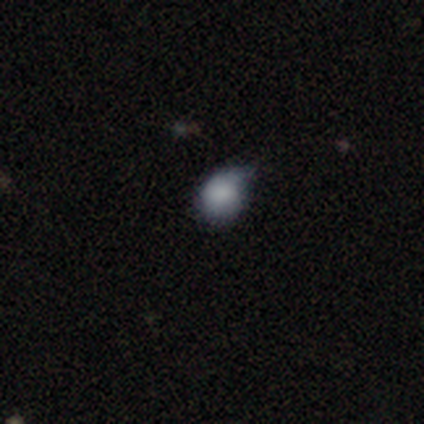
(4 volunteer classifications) A smooth galaxy with no disk features (75%) that is round (67%).

Vote fractions:
- Smooth or featured? smooth: 75% / star or artifact: 25% / featured or disk: 0%
- How rounded? round: 67% / in between: 33% / cigar-shaped: 0%
- Merging? major disturbance: 67% / minor disturbance: 33% / none: 0% / merger: 0%